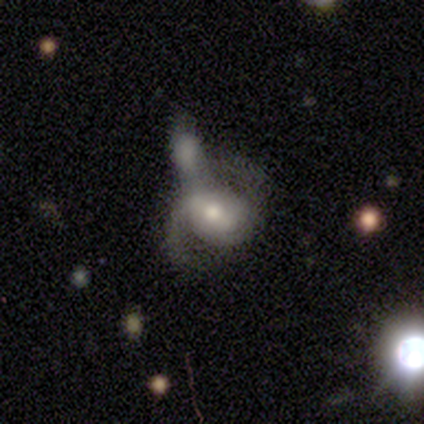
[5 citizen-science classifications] A featured or disk galaxy (80%) with no bar (50%), 1 (33%, tied with 2 and can't tell) loose (67%) spiral arms (75%) and a moderate central bulge (75%). Merging: major disturbance (40%, tied with merger).